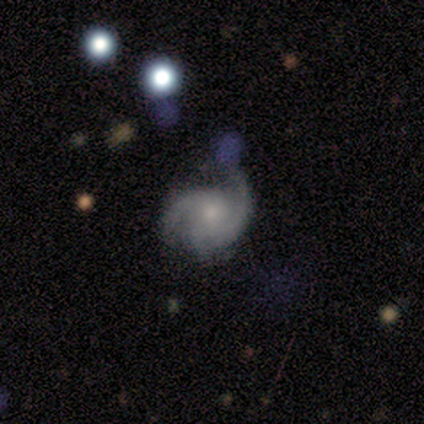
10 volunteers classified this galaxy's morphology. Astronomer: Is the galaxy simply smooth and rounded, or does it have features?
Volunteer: featured or disk — 100%.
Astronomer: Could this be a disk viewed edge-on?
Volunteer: no — 100%.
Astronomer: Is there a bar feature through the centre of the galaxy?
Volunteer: no — 90%.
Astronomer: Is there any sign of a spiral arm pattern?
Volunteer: yes — 100%.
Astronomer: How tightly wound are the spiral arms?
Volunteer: medium — 50% (runner-up: tight, 30%).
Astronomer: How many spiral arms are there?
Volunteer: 3 — 50% (runner-up: can't tell, 30%).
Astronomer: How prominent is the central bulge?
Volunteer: small — 60%.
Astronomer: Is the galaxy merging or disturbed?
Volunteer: none — 60%.